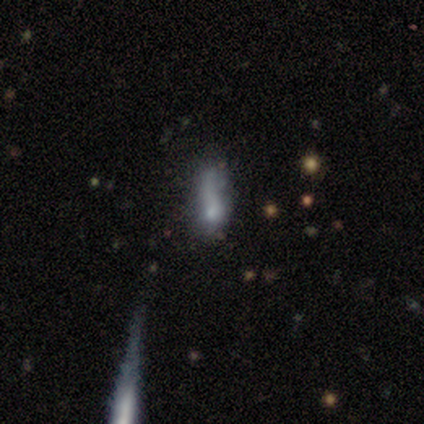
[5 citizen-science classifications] A smooth galaxy with no disk features (100%) that is in between round and cigar-shaped (80%). Merging: none (60%).